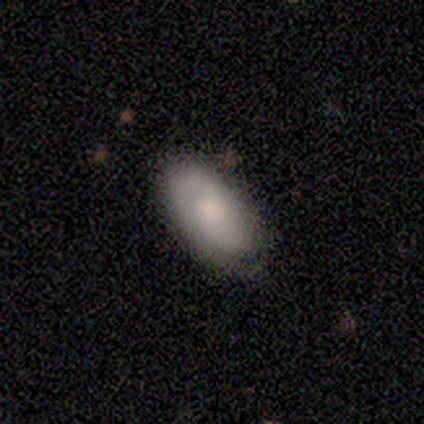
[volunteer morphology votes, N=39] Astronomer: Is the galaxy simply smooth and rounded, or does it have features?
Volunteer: featured or disk — 56% (runner-up: smooth, 41%).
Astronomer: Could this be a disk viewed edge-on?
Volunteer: no — 95%.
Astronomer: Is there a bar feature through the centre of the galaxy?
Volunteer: no — 71%.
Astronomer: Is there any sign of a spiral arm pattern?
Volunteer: yes — 81%.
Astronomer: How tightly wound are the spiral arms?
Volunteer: tight — 71%.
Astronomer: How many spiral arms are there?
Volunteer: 2 — 47% (runner-up: can't tell, 35%).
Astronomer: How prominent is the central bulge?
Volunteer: moderate — 48%.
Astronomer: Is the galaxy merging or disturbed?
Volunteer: none — 53%.